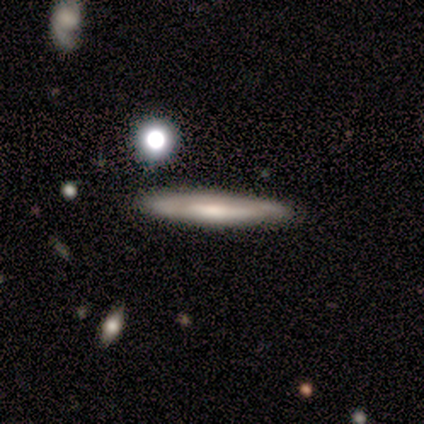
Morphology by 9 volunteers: Overall: featured or disk (44%; smooth 33%). Edge-on disk: yes (75%). Edge-on bulge: none (67%; rounded 33%). Merging: none (100%).